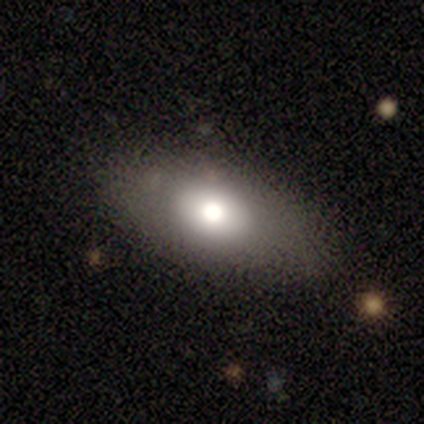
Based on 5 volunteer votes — This is marginally a smooth galaxy (40%, tied with star or artifact). How rounded: clearly in between (100%). Merging: likely none (67%).